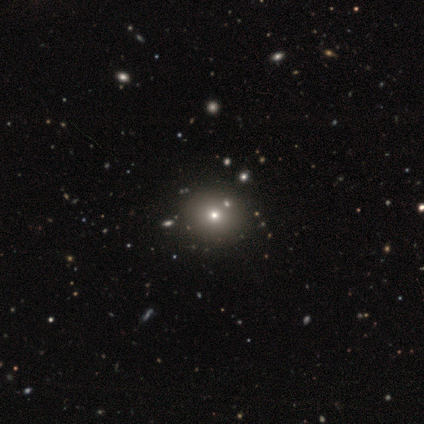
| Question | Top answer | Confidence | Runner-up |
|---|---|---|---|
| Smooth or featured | smooth | 67% | star or artifact (33%) |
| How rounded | round | 100% | — |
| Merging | none | 100% | — |